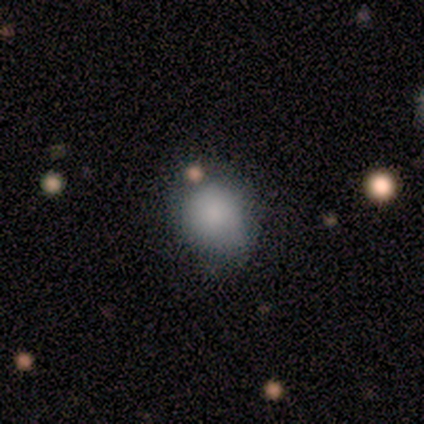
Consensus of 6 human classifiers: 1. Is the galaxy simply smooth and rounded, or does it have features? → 83% smooth, 17% featured or disk, 0% star or artifact.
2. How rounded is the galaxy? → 80% in between, 20% round, 0% cigar-shaped.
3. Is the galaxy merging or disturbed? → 83% none, 17% minor disturbance, 0% major disturbance, 0% merger.